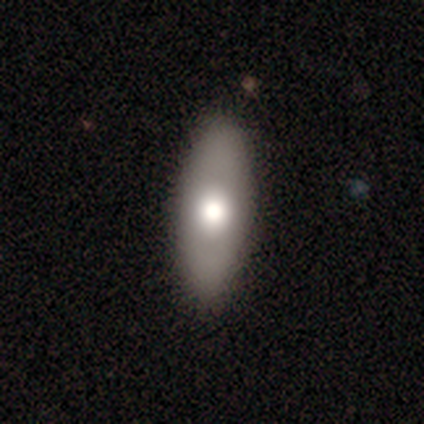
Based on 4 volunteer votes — A smooth galaxy with no disk features (100%) that is in between round and cigar-shaped (50%). Merging: none (100%).